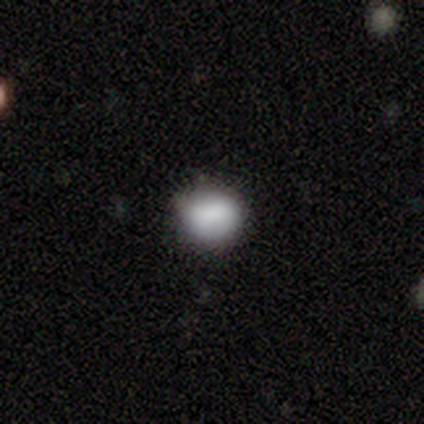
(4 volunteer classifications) Q: Smooth or featured?
A: smooth (50%); tied with: star or artifact (50%)
Q: How rounded?
A: round (50%); tied with: in between (50%)
Q: Merging?
A: none (100%)